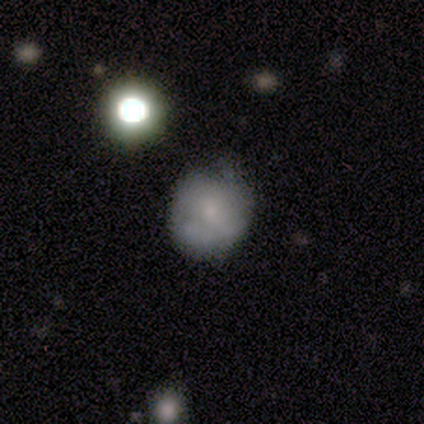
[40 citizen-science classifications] Q: Smooth or featured?
A: smooth (57%); runner-up: featured or disk (22%)
Q: How rounded?
A: round (74%); runner-up: in between (22%)
Q: Merging?
A: none (66%); runner-up: minor disturbance (22%)